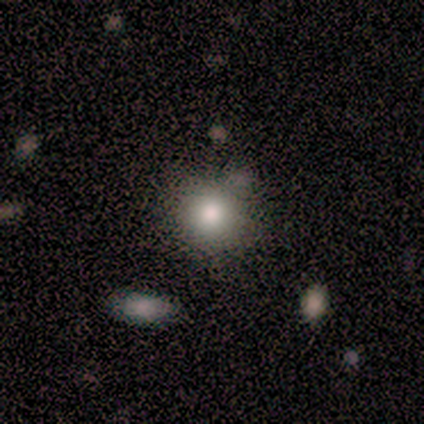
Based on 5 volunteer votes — Morphology: type=smooth (80%); roundness=round (100%); merging=none (60%).